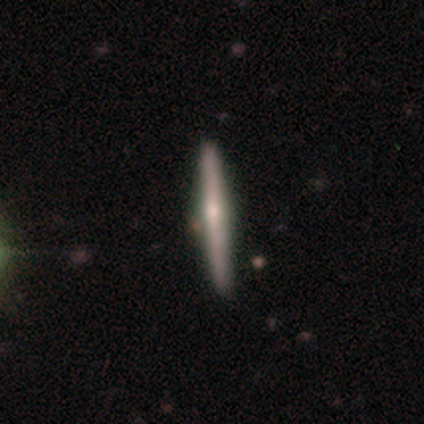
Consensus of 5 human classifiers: This is clearly a featured or disk galaxy (80%). It is likely viewed edge-on (75%). Edge-on bulge: likely rounded (67%). Merging: clearly none (100%).